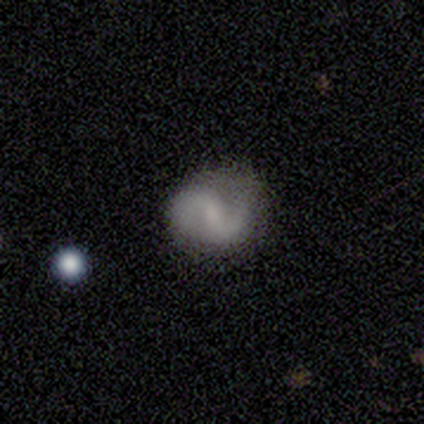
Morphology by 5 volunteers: This appears to be a smooth galaxy with no disk features (40%, tied with featured or disk) that is round (50%, tied with in between). Merging: minor disturbance (75%).